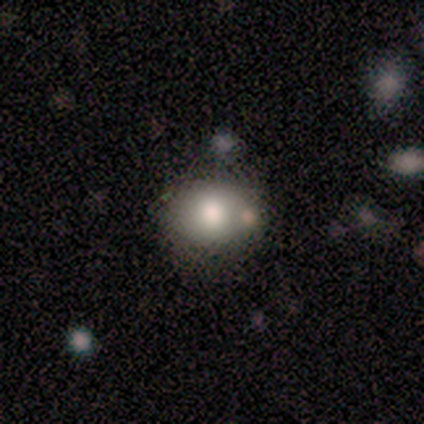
Volunteers were most divided on "merging": none: 60%, minor disturbance: 40%, major disturbance: 0%, merger: 0%. More confident: smooth or featured — smooth (80%); how rounded — in between (75%).